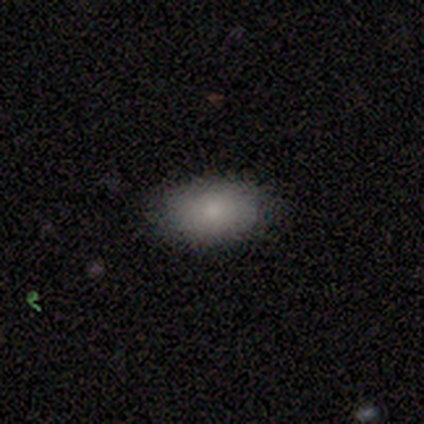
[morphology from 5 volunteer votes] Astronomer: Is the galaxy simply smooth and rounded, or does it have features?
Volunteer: smooth — 80%.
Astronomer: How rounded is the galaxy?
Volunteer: in between — 100%.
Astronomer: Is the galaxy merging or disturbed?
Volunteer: none — 100%.